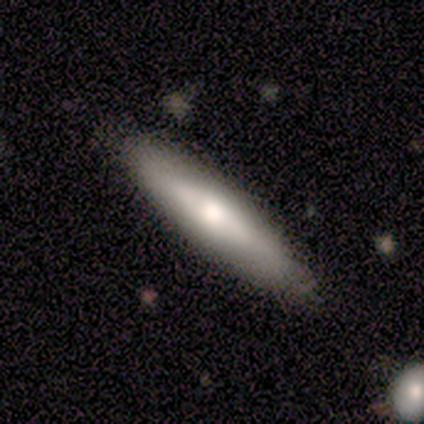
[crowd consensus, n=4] A smooth galaxy with no disk features (50%, tied with featured or disk) that is cigar-shaped (100%).

Vote fractions:
- Smooth or featured? smooth: 50% (tied) / featured or disk: 50% (tied) / star or artifact: 0%
- How rounded? cigar-shaped: 100% / round: 0% / in between: 0%
- Merging? none: 50% (tied) / minor disturbance: 50% (tied) / major disturbance: 0% / merger: 0%